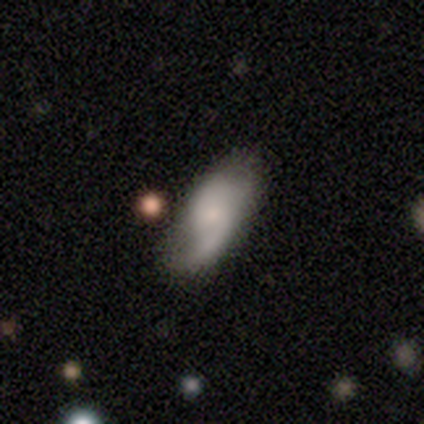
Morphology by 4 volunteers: This appears to be a featured or disk galaxy (100%) with no bar (67%), 2 (100%) loose (67%) spiral arms (100%) and a small central bulge (67%). Merging: none (100%).